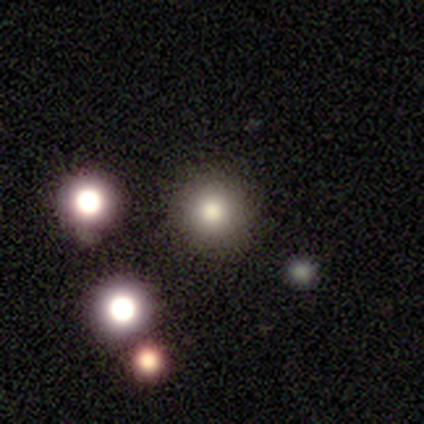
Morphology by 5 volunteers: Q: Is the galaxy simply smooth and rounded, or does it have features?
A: smooth — 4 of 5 (80%).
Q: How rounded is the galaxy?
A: round — 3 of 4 (75%).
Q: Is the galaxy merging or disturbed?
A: none — 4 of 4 (100%).